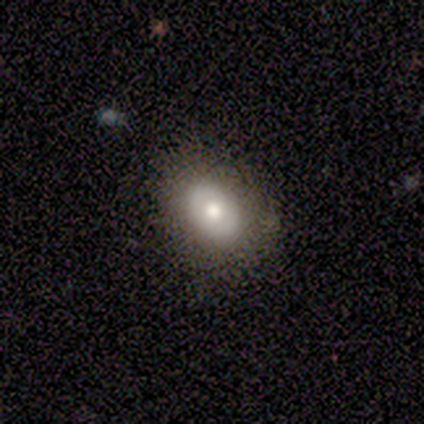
smooth 40% (tied), star or artifact 40% (tied), featured or disk 20%. Down the decision tree: how rounded — in between (50%, tied with cigar-shaped); merging — none (67%).